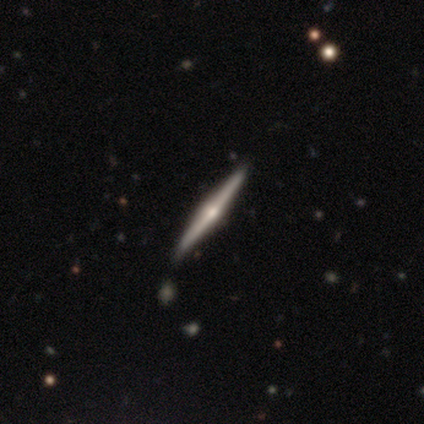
Smooth or featured? 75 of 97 (77%) said featured or disk. Edge-on disk? 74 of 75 (99%) said yes. Edge-on bulge? 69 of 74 (93%) said rounded. Merging? 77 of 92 (84%) said none.